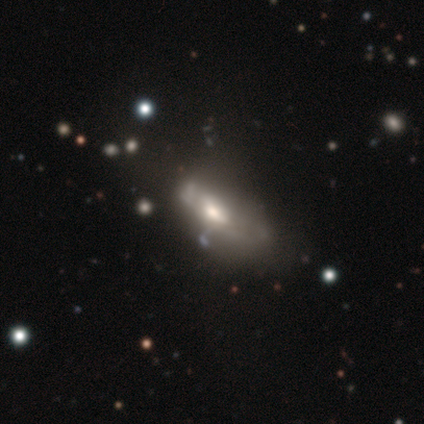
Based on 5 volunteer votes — A smooth galaxy with no disk features (60%) that is in between round and cigar-shaped (100%). Merging: none (25%, tied with minor disturbance, major disturbance and merger).